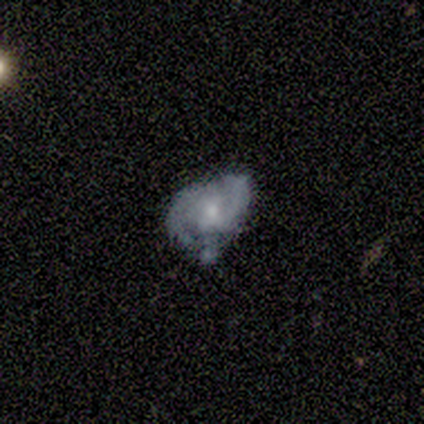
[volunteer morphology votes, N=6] smooth_or_featured: featured or disk (p=1.00)
disk_edge_on: no (p=1.00)
bar: no (p=0.67) [alt: weak p=0.33]
has_spiral_arms: yes (p=0.83) [alt: no p=0.17]
spiral_winding: medium (p=0.80) [alt: tight p=0.20]
spiral_arm_count: 2 (p=0.80) [alt: can't tell p=0.20]
bulge_size: moderate (p=0.50) [tied with: small p=0.50]
merging: none (p=0.50) [tied with: minor disturbance p=0.50]